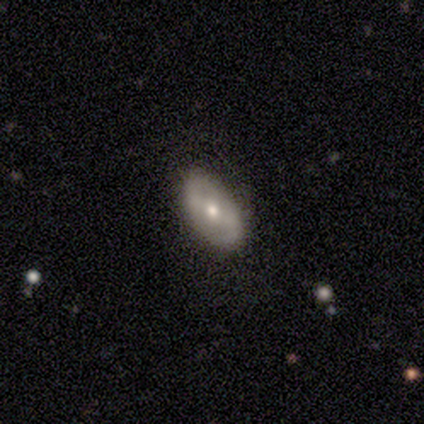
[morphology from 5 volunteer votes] Smooth or featured? 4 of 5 (80%) said featured or disk. Edge-on disk? 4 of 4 (100%) said no. Bar? 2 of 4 (50%) said weak. Spiral arms? 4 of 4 (100%) said yes. Spiral winding? 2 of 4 (50%, tied with loose) said medium. Spiral arm count? 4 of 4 (100%) said 2. Bulge size? 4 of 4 (100%) said moderate. Merging? 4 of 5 (80%) said none.